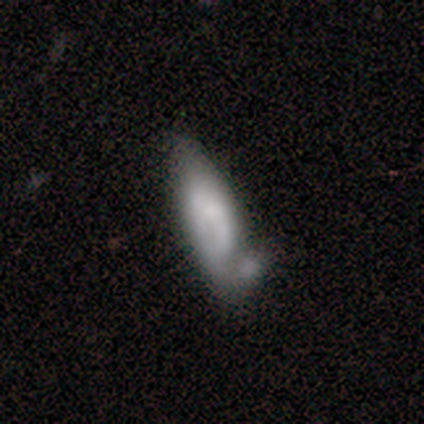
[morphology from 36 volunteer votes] A smooth galaxy with no disk features (61%) that is cigar-shaped (59%). Merging: minor disturbance (33%).